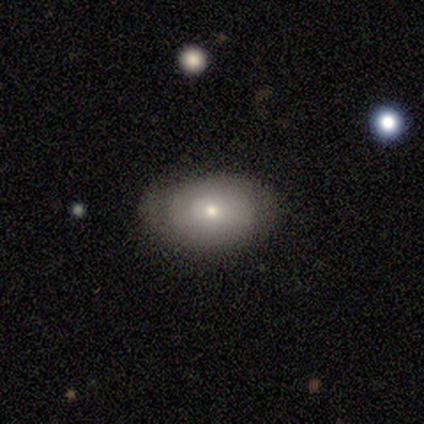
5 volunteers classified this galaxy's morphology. This appears to be a featured or disk galaxy (60%) with no bar (100%), no spiral arms (67%) and a small central bulge (100%). Merging: none (80%).